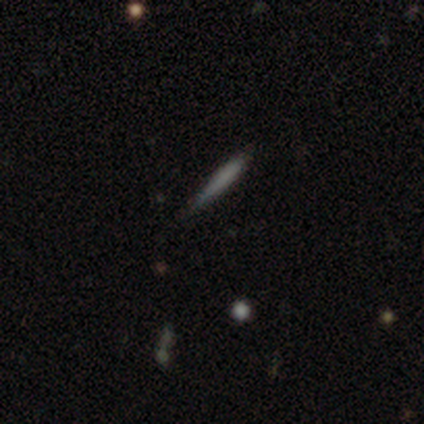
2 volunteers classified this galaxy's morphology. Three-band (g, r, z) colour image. It shows a smooth galaxy with no disk features (50%, tied with featured or disk) that is cigar-shaped (100%). Merging: none (100%).